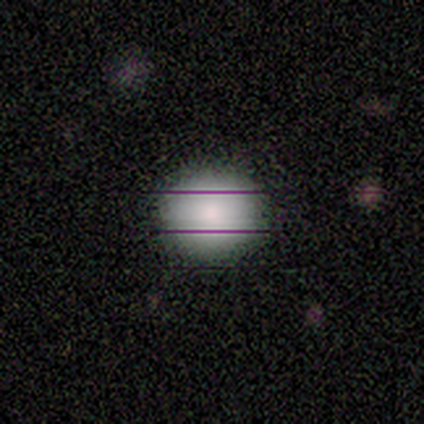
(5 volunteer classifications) Smooth or featured? 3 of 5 (60%) said smooth. How rounded? 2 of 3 (67%) said round. Merging? 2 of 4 (50%, tied with minor disturbance) said none.